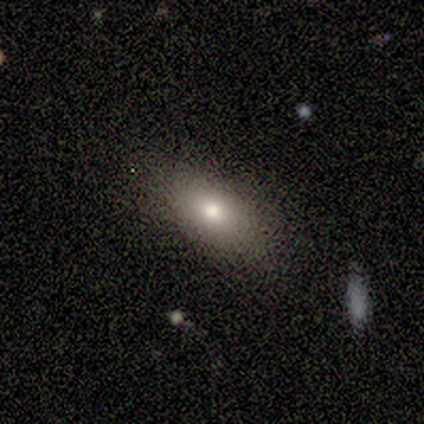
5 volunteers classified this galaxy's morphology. smooth_or_featured: smooth (p=0.60) [alt: featured or disk p=0.40]
how_rounded: in between (p=1.00)
merging: none (p=1.00)